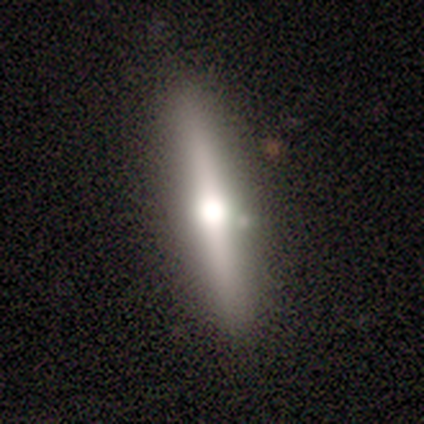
smooth-or-featured: smooth: 50% (tied) | featured or disk: 50% (tied) | star or artifact: 0%
  how-rounded: cigar-shaped: 100% | round: 0% | in between: 0%
  merging: none: 75% | minor disturbance: 25% | major disturbance: 0% | merger: 0%